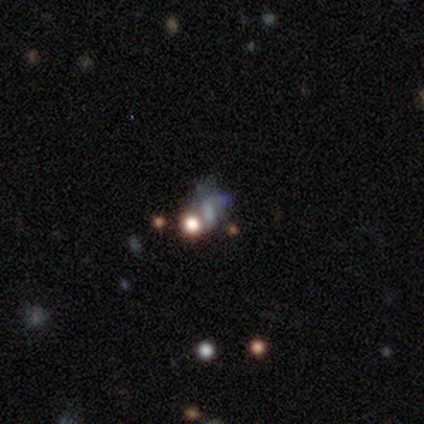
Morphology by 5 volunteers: Overall: smooth (60%; featured or disk 20%). How rounded: in between (67%; round 33%). Merging: major disturbance (50%; none 25%).